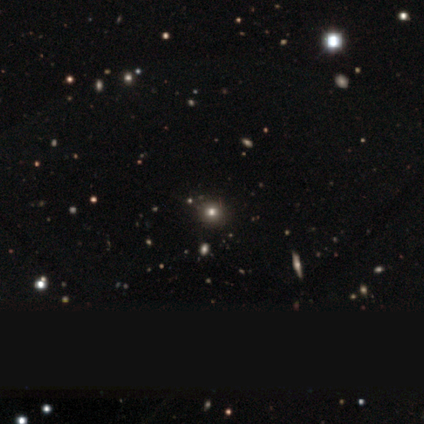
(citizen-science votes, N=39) Q: Smooth or featured?
A: smooth (56%); runner-up: star or artifact (36%)
Q: How rounded?
A: round (95%); runner-up: in between (5%)
Q: Merging?
A: none (60%); runner-up: minor disturbance (12%)